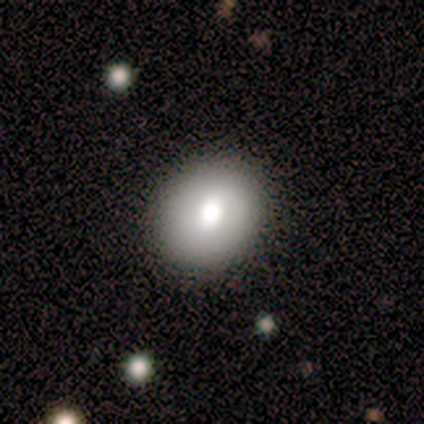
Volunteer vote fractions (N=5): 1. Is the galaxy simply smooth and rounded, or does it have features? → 60% smooth, 40% featured or disk, 0% star or artifact.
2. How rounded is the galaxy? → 67% round, 33% in between, 0% cigar-shaped.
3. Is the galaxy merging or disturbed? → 80% none, 20% minor disturbance, 0% major disturbance, 0% merger.